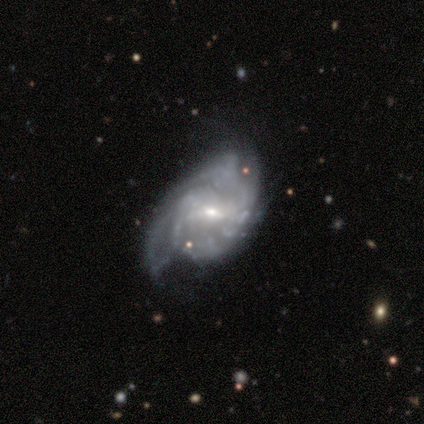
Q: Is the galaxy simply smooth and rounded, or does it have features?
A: featured or disk — 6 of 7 (86%).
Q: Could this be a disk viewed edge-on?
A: no — 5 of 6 (83%).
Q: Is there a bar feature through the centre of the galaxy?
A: weak — 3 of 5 (60%).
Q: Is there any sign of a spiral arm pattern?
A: yes — 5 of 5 (100%).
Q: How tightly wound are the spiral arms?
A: tight — 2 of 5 (40%, tied with loose).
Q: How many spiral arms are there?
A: can't tell — 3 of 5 (60%).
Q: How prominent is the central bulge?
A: small — 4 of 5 (80%).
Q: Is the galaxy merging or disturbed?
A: minor disturbance — 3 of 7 (43%).